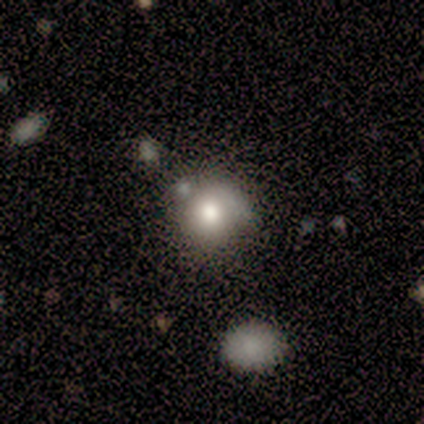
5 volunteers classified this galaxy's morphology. This is clearly a smooth galaxy (100%). How rounded: likely round (60%). Merging: marginally minor disturbance (40%).